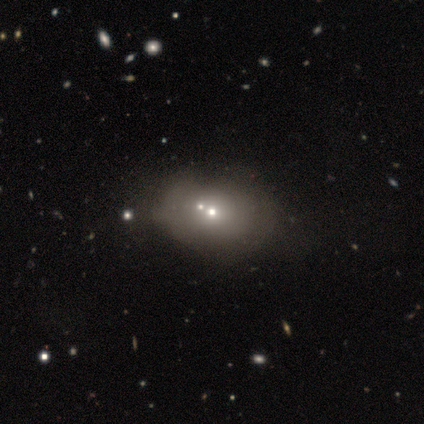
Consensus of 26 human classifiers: A smooth galaxy with no disk features (58%) that is in between round and cigar-shaped (80%).

Vote fractions:
- Smooth or featured? smooth: 58% / featured or disk: 23% / star or artifact: 19%
- How rounded? in between: 80% / round: 20% / cigar-shaped: 0%
- Merging? merger: 52% / none: 10% / minor disturbance: 5% / major disturbance: 5%